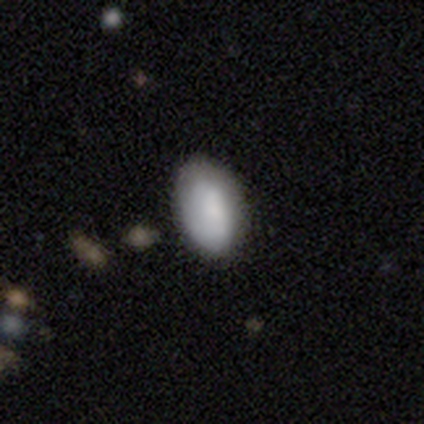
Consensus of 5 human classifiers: Volunteers were most divided on "merging": none: 80%, minor disturbance: 20%, major disturbance: 0%, merger: 0%. More confident: smooth or featured — smooth (100%); how rounded — in between (100%).